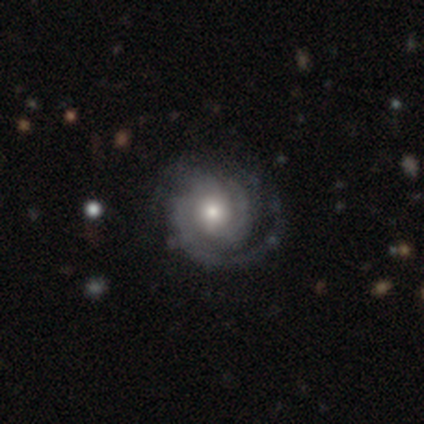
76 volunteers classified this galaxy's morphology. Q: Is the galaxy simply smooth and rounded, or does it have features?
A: featured or disk — 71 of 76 (93%).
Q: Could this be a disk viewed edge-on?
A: no — 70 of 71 (99%).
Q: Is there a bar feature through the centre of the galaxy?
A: no — 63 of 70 (90%).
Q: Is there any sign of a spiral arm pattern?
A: yes — 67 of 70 (96%).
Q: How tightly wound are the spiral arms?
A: tight — 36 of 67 (54%).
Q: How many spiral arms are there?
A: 3 — 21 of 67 (31%).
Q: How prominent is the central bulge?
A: moderate — 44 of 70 (63%).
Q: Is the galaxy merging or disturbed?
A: none — 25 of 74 (34%).